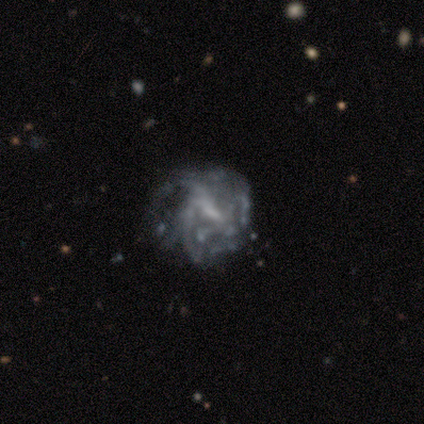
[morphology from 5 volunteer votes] type=featured or disk (80%); edge-on=no (100%); bar=weak (50%, tied with no); spiral arms=yes (50%, tied with no); winding=tight (50%, tied with loose); arm count=can't tell (100%); bulge=small (50%, tied with none); merging=none (60%).